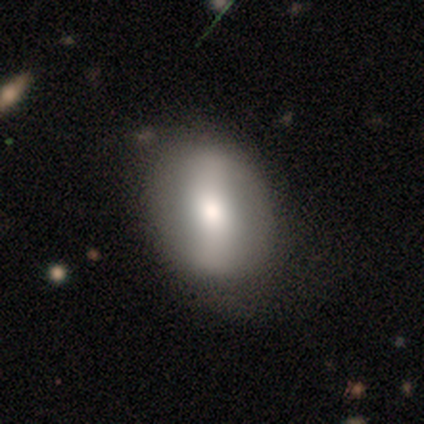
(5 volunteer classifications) smooth_or_featured: featured or disk (p=0.80) [alt: smooth p=0.20]
disk_edge_on: no (p=1.00)
bar: strong (p=0.50) [alt: weak p=0.25]
has_spiral_arms: no (p=1.00)
bulge_size: small (p=0.50) [alt: dominant p=0.25]
merging: none (p=0.60) [alt: minor disturbance p=0.20]